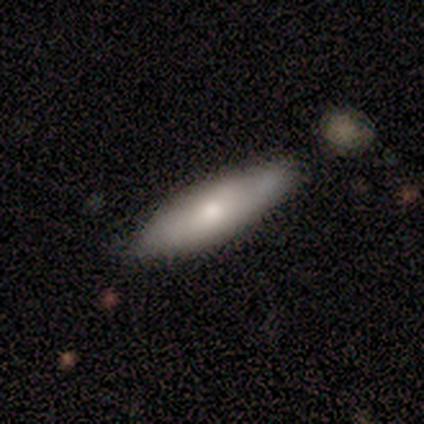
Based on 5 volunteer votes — Morphology: type=smooth (100%); roundness=in between (60%); merging=none (80%).